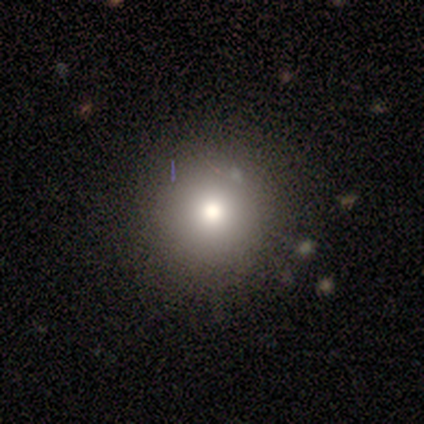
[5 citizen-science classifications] Volunteers were most divided on "smooth or featured": smooth: 60%, featured or disk: 20%, star or artifact: 20%. More confident: how rounded — round (100%); merging — none (75%).